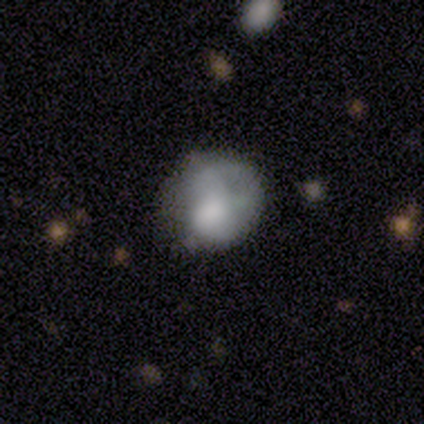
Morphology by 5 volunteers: Smooth or featured? smooth (60%)
How rounded? round (67%)
Merging? minor disturbance (80%)